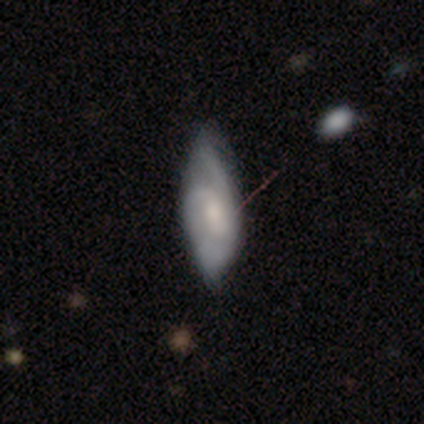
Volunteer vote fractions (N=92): Smooth or featured? smooth (48%, tied with featured or disk)
How rounded? in between (73%)
Merging? none (53%)